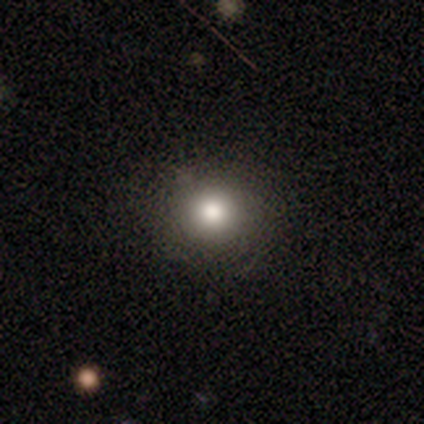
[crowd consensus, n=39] Morphology: type=smooth (74%); roundness=round (90%); merging=none (91%).